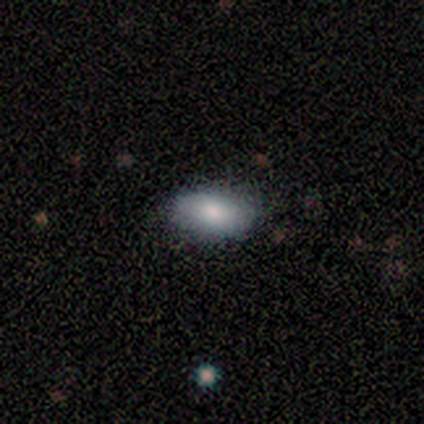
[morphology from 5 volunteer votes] Volunteers were most divided on "merging": none: 60%, minor disturbance: 40%, major disturbance: 0%, merger: 0%. More confident: how rounded — in between (100%); smooth or featured — smooth (80%).